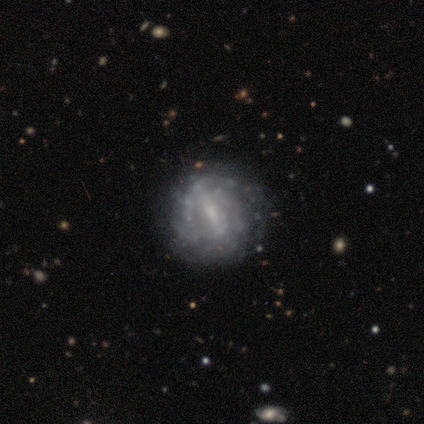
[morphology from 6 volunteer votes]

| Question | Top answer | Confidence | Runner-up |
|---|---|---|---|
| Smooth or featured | featured or disk | 83% | smooth (17%) |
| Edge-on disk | no | 100% | — |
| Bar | strong | 40% | tied: weak (40%) |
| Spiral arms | yes | 60% | no (40%) |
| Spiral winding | tight | 67% | medium (33%) |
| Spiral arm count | can't tell | 67% | 3 (33%) |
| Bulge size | none | 80% | moderate (20%) |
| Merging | none | 50% | major disturbance (33%) |